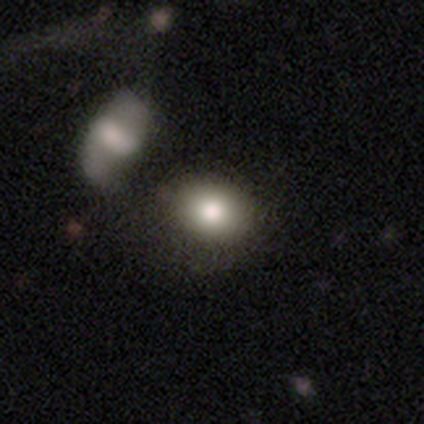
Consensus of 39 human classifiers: smooth_or_featured: smooth (p=0.85) [alt: featured or disk p=0.13]
how_rounded: round (p=0.52) [alt: in between p=0.48]
merging: none (p=0.50) [alt: merger p=0.32]